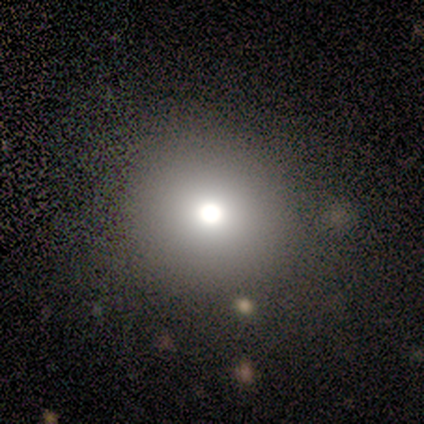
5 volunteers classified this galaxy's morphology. Overall: smooth (100%). How rounded: round (100%). Merging: none (100%).